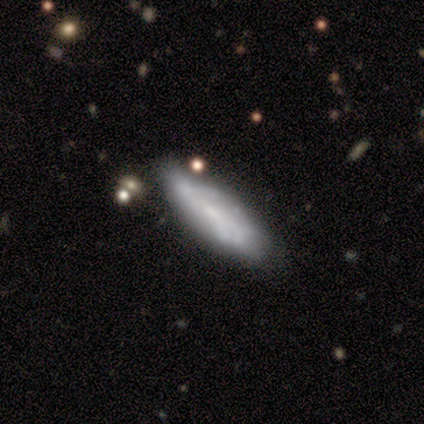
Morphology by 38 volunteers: Q: Smooth or featured?
A: smooth (47%); runner-up: featured or disk (45%)
Q: How rounded?
A: in between (67%); runner-up: cigar-shaped (33%)
Q: Merging?
A: none (49%); runner-up: minor disturbance (40%)